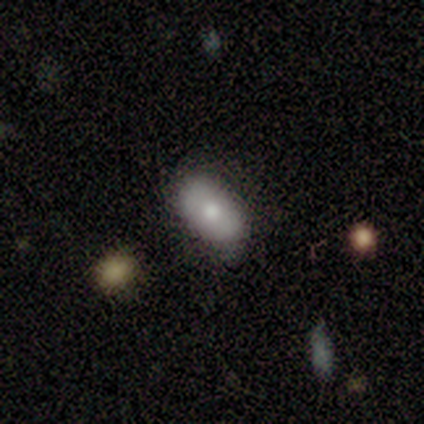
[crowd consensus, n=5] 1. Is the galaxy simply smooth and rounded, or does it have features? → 80% smooth, 20% star or artifact, 0% featured or disk.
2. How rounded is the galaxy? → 100% in between, 0% round, 0% cigar-shaped.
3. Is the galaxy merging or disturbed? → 75% none, 25% minor disturbance, 0% major disturbance, 0% merger.